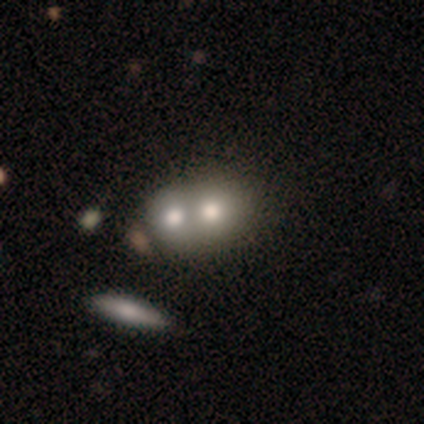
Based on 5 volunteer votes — Volunteers were most divided on "how rounded": round: 75%, in between: 25%, cigar-shaped: 0%. More confident: merging — merger (100%); smooth or featured — smooth (80%).